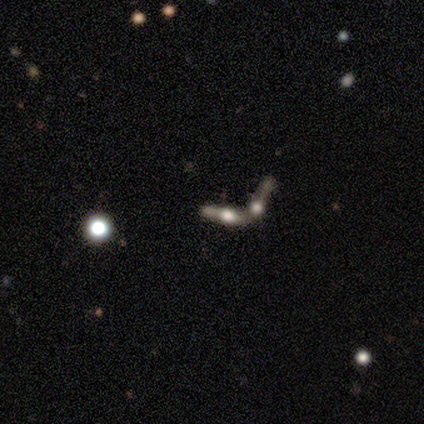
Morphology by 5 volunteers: Volunteers were most divided on "edge-on bulge": rounded: 75%, none: 25%, boxy: 0%. More confident: smooth or featured — featured or disk (100%); merging — merger (100%); edge-on disk — yes (80%).